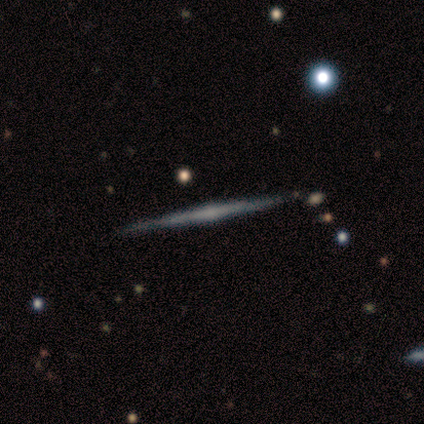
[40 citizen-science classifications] This appears to be a featured or disk galaxy (78%) viewed edge-on (100%) with a rounded central bulge (77%). Merging: none (95%).